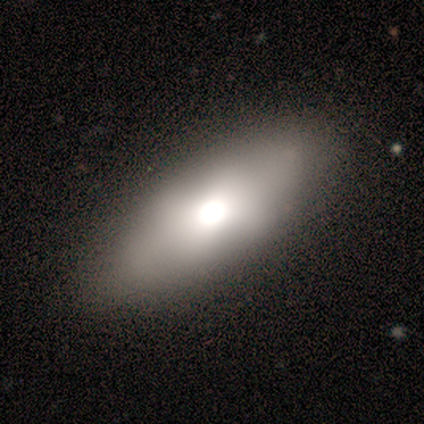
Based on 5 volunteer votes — A featured or disk galaxy (80%) with no bar (100%), no spiral arms (100%) and a moderate central bulge (67%). Merging: none (80%).